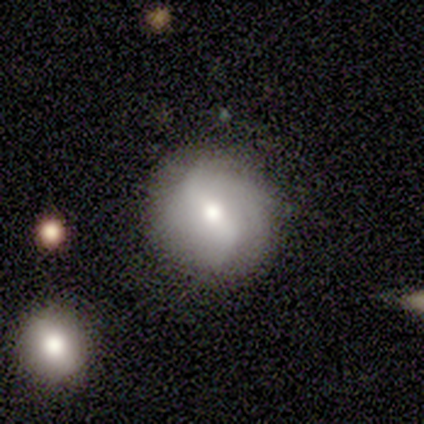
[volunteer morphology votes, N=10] This appears to be a featured or disk galaxy (80%) with a strong bar (71%), 2 (60%) loose (60%) spiral arms (71%) and a moderate central bulge (43%). Merging: none (90%).